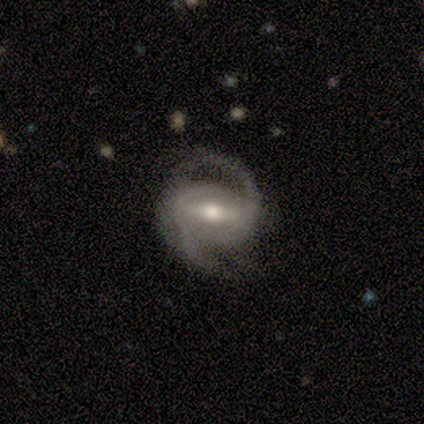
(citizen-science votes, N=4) Smooth or featured? 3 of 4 (75%) said featured or disk. Edge-on disk? 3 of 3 (100%) said no. Bar? 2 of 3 (67%) said strong. Spiral arms? 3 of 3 (100%) said yes. Spiral winding? 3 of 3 (100%) said medium. Spiral arm count? 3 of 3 (100%) said 2. Bulge size? 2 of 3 (67%) said moderate. Merging? 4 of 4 (100%) said none.